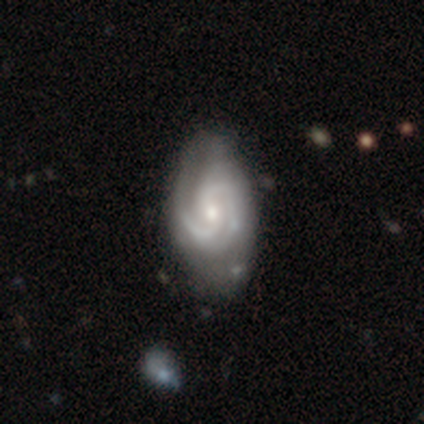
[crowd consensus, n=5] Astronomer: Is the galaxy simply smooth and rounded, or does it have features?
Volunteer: featured or disk — 100%.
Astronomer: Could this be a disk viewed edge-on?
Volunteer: no — 100%.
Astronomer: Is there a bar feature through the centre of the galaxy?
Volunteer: weak — 60% (runner-up: no, 40%).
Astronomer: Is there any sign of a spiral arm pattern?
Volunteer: yes — 100%.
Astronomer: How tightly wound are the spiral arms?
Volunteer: tight — 60% (runner-up: medium, 40%).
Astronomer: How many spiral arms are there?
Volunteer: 2 — 60%.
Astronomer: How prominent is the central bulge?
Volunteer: moderate — 40%, tied with small at 40%.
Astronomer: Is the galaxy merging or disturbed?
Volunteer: none — 80%.